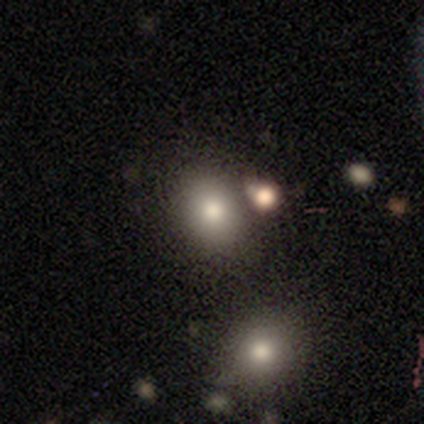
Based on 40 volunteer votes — A smooth galaxy with no disk features (75%) that is round (50%, tied with in between). Merging: none (59%).